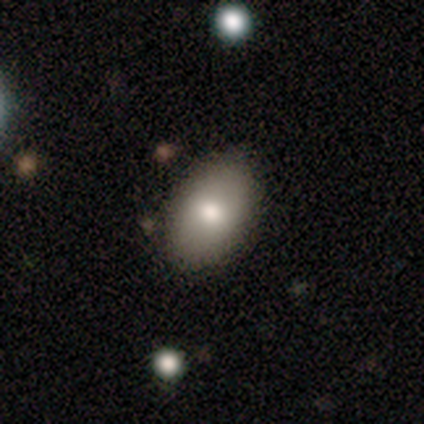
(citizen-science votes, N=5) Smooth or featured? 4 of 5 (80%) said smooth. How rounded? 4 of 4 (100%) said in between. Merging? 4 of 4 (100%) said none.